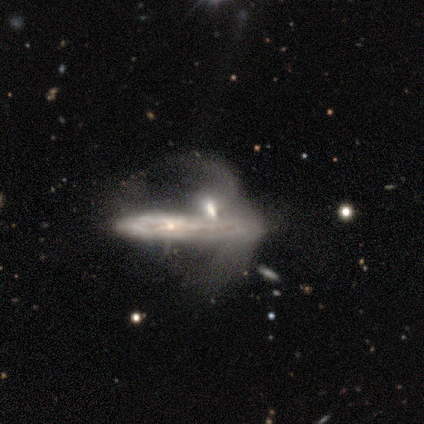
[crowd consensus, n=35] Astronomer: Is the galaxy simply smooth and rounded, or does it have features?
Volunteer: featured or disk — 80%.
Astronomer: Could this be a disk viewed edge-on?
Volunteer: no — 54% (runner-up: yes, 46%).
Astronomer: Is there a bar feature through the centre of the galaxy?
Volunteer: no — 80%.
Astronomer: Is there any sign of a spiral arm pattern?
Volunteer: no — 80%.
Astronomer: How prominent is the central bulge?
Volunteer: none — 40% (runner-up: small, 33%).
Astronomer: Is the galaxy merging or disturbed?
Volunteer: merger — 66%.